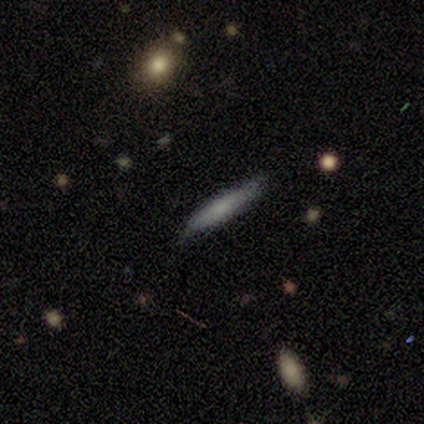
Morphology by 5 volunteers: Smooth or featured: smooth — 100%
How rounded: cigar-shaped — 100%
Merging: none — 80% (minor disturbance — 20%)